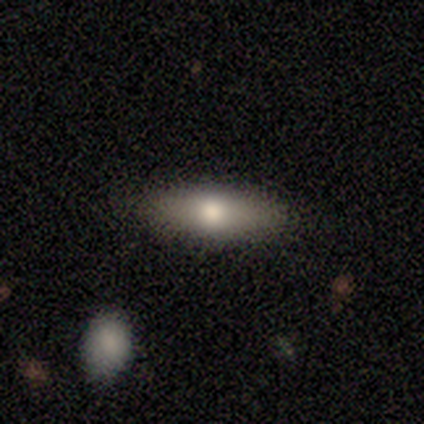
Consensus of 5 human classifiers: This appears to be a featured or disk galaxy (60%) viewed edge-on (67%) with a rounded central bulge (100%). Merging: none (100%).